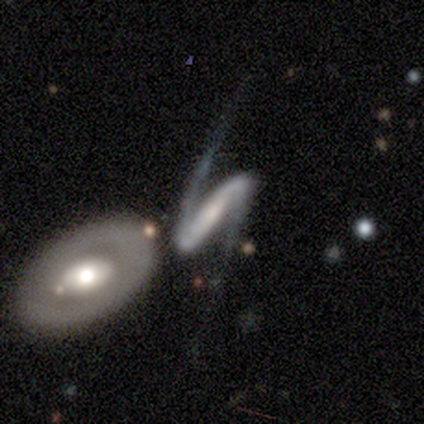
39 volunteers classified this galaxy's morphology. This is clearly a featured or disk galaxy (95%). It is clearly not viewed edge-on (95%). Bar: likely strong (77%). Spiral arm pattern: clearly yes (86%). Spiral arm count: clearly 2 (97%). Spiral winding: clearly loose (87%). Central bulge: marginally small (40%). Merging: likely none (66%).